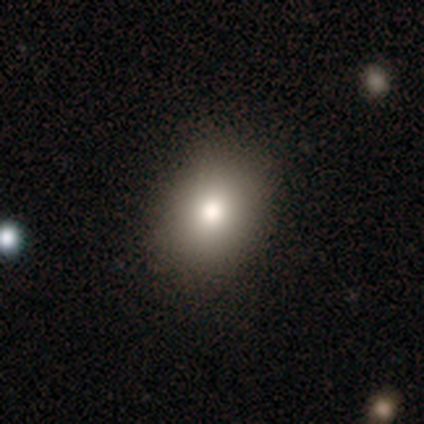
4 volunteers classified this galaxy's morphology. A smooth galaxy with no disk features (75%) that is round (67%). Merging: none (100%).